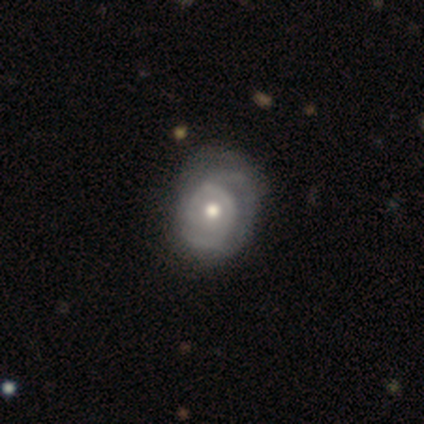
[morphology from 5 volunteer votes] Smooth or featured?
  - featured or disk: 80% *
  - smooth: 20%
  - star or artifact: 0%
Edge-on disk?
  - no: 100% *
  - yes: 0%
Bar?
  - no: 100% *
  - strong: 0%
  - weak: 0%
Spiral arms?
  - yes: 75% *
  - no: 25%
Spiral winding?
  - tight: 67% *
  - medium: 33%
  - loose: 0%
Spiral arm count?
  - can't tell: 67% *
  - 2: 33%
  - 1: 0%
  - 3: 0%
  - 4: 0%
  - more than 4: 0%
Bulge size?
  - moderate: 75% *
  - small: 25%
  - dominant: 0%
  - large: 0%
  - none: 0%
Merging?
  - minor disturbance: 60% *
  - none: 20%
  - major disturbance: 20%
  - merger: 0%